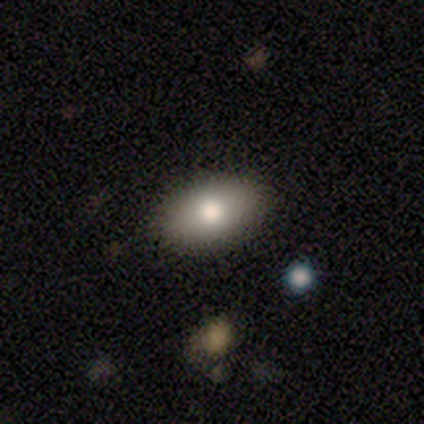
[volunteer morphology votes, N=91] Smooth or featured: smooth — 73% (featured or disk — 22%)
How rounded: in between — 91% (cigar-shaped — 6%)
Merging: none — 91% (minor disturbance — 7%)